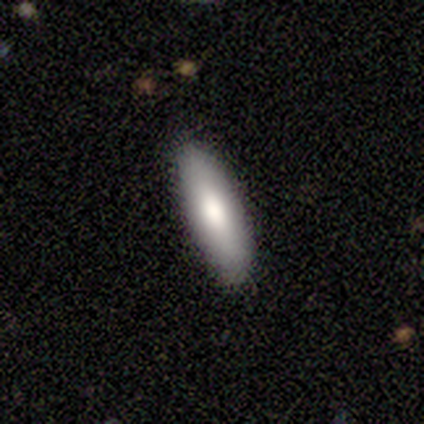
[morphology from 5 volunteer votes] smooth-or-featured: smooth: 100% | featured or disk: 0% | star or artifact: 0%
  how-rounded: in between: 60% | cigar-shaped: 40% | round: 0%
  merging: none: 100% | minor disturbance: 0% | major disturbance: 0% | merger: 0%